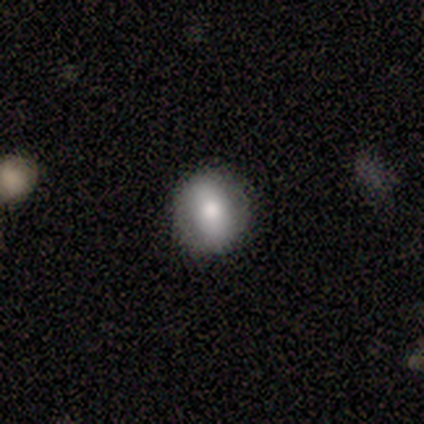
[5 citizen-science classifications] Overall: smooth (60%; featured or disk 20%). How rounded: round (100%). Merging: none (100%).